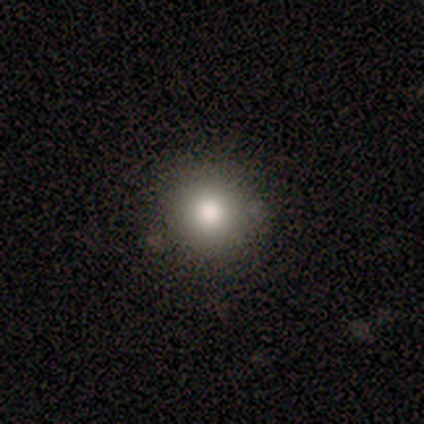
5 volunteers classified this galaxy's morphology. This appears to be a smooth galaxy with no disk features (100%) that is round (100%). Merging: none (80%).